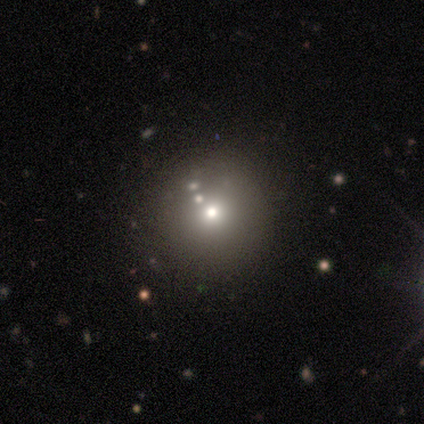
Smooth or featured? 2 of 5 (40%, tied with star or artifact) said smooth. How rounded? 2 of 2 (100%) said round. Merging? 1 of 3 (33%, tied with minor disturbance and major disturbance) said none.